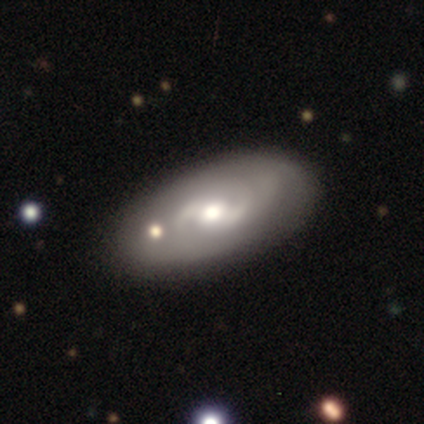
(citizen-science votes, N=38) Smooth or featured? featured or disk (76%)
Edge-on disk? no (100%)
Bar? no (41%)
Spiral arms? yes (93%)
Spiral winding? medium (44%)
Spiral arm count? 2 (74%)
Bulge size? moderate (66%)
Merging? none (69%)